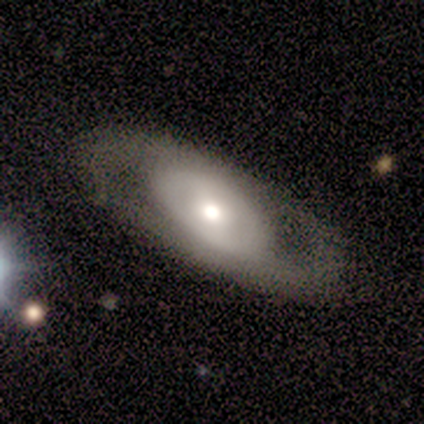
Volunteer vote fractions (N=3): This appears to be a smooth galaxy with no disk features (33%, tied with featured or disk and star or artifact) that is in between round and cigar-shaped (100%). Merging: none (50%, tied with minor disturbance).